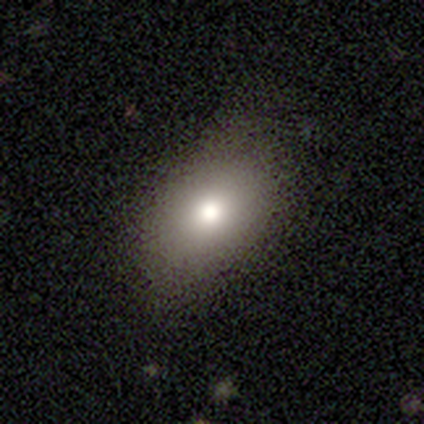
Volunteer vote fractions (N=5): Smooth or featured? smooth (80%)
How rounded? in between (75%)
Merging? none (100%)